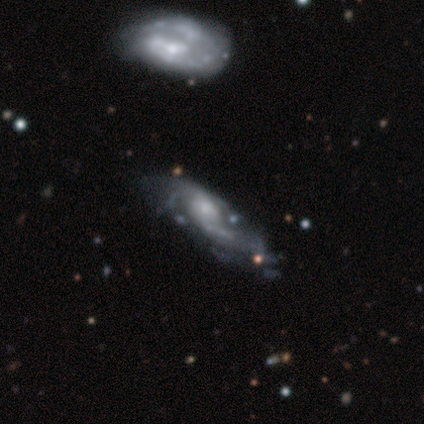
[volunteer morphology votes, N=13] Volunteers were most divided on "spiral arm count" (2-way tie): 2: 33%, can't tell: 33%, 3: 22%, 1: 11%, 4: 0%, more than 4: 0%. Remaining: edge-on disk — no (100%); smooth or featured — featured or disk (92%); bar — no (75%); spiral arms — yes (75%); bulge size — small (58%); spiral winding — loose (56%); merging — none (46%).